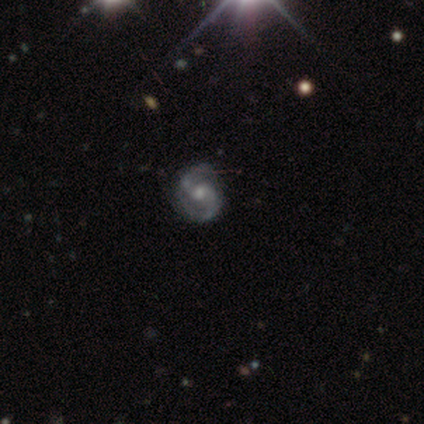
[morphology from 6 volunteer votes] A featured or disk galaxy (83%) with a weak bar (40%, tied with no), 2 (100%) medium (60%) spiral arms (100%) and a moderate central bulge (40%, tied with small).

Vote fractions:
- Smooth or featured? featured or disk: 83% / star or artifact: 17% / smooth: 0%
- Edge-on disk? no: 100% / yes: 0%
- Bar? weak: 40% (tied) / no: 40% (tied) / strong: 20%
- Spiral arms? yes: 100% / no: 0%
- Spiral winding? medium: 60% / loose: 40% / tight: 0%
- Spiral arm count? 2: 100% / 1: 0% / 3: 0% / 4: 0% / more than 4: 0% / can't tell: 0%
- Bulge size? moderate: 40% (tied) / small: 40% (tied) / large: 20% / dominant: 0% / none: 0%
- Merging? none: 100% / minor disturbance: 0% / major disturbance: 0% / merger: 0%